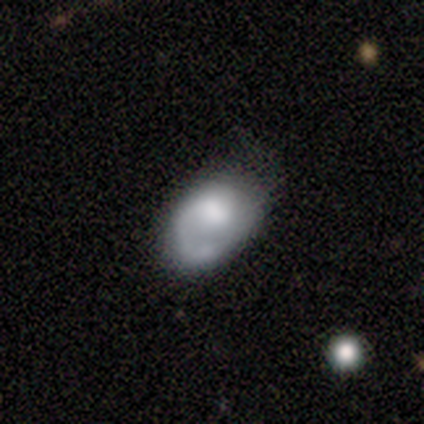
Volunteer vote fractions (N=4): This appears to be a smooth galaxy with no disk features (75%) that is in between round and cigar-shaped (100%). Merging: minor disturbance (75%).